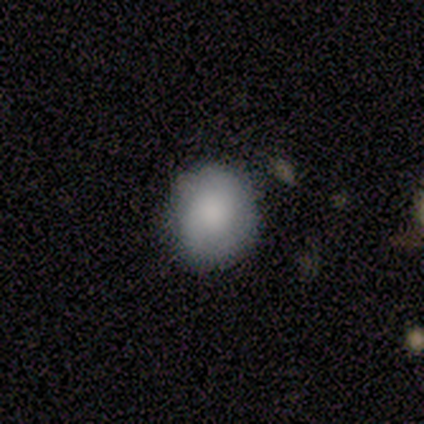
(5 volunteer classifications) Overall: smooth (100%). How rounded: round (80%). Merging: none (80%).